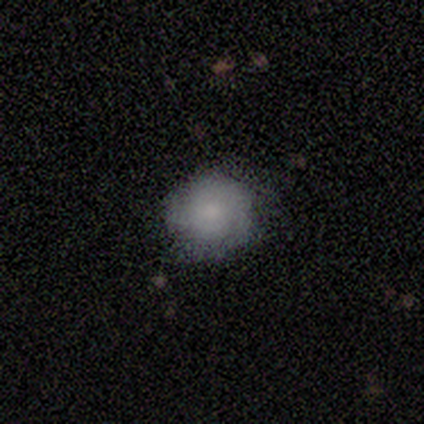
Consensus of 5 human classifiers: smooth-or-featured: smooth: 100% | featured or disk: 0% | star or artifact: 0%
  how-rounded: round: 100% | in between: 0% | cigar-shaped: 0%
  merging: none: 80% | minor disturbance: 20% | major disturbance: 0% | merger: 0%